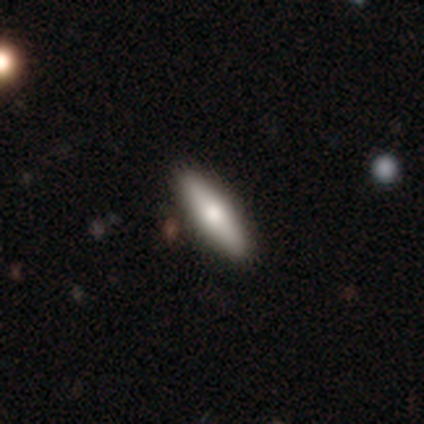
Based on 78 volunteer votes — A smooth galaxy with no disk features (69%) that is cigar-shaped (74%).

Vote fractions:
- Smooth or featured? smooth: 69% / featured or disk: 28% / star or artifact: 3%
- How rounded? cigar-shaped: 74% / in between: 26% / round: 0%
- Merging? none: 49% / minor disturbance: 3% / merger: 3% / major disturbance: 0%